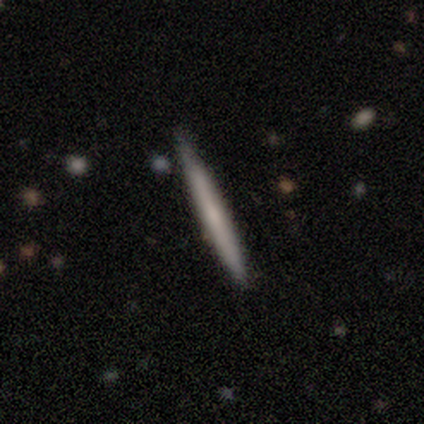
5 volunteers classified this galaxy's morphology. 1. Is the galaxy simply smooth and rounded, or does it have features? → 80% featured or disk, 20% smooth, 0% star or artifact.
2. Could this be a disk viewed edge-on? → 100% yes, 0% no.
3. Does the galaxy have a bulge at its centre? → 100% none, 0% boxy, 0% rounded.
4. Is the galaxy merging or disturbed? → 100% none, 0% minor disturbance, 0% major disturbance, 0% merger.